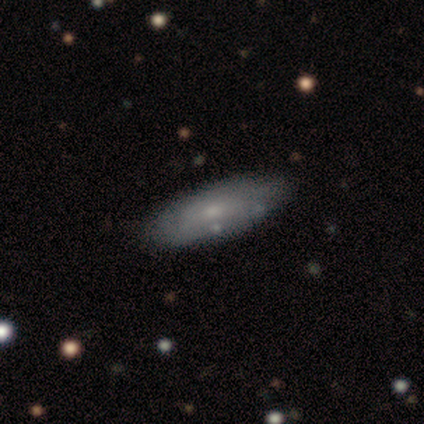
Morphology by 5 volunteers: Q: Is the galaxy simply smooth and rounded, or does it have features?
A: smooth — 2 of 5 (40%, tied with featured or disk).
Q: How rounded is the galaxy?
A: in between — 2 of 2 (100%).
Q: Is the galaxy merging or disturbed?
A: none — 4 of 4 (100%).